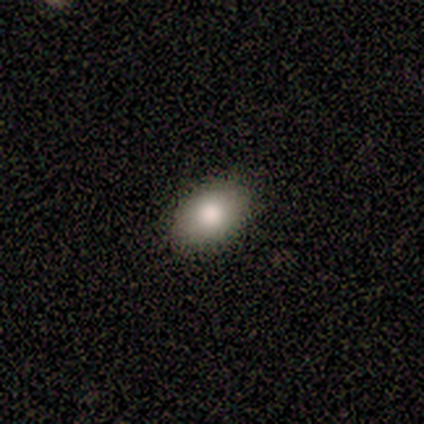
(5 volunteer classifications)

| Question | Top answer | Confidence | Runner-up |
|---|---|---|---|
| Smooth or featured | smooth | 100% | — |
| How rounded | in between | 80% | round (20%) |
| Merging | none | 100% | — |